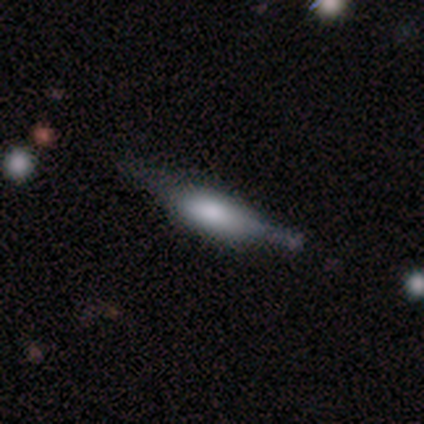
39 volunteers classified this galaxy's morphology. Volunteers were most divided on "smooth or featured": smooth: 54%, featured or disk: 41%, star or artifact: 5%. Remaining: how rounded — cigar-shaped (62%); merging — none (46%).